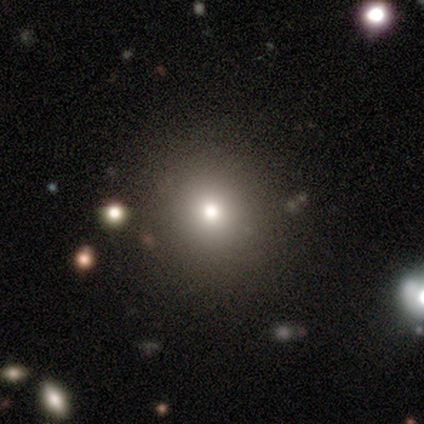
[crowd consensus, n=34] smooth 56%, star or artifact 38%, featured or disk 6%. Down the decision tree: how rounded — round (95%); merging — none (100%).